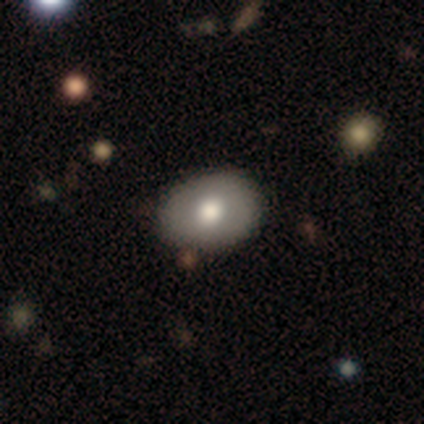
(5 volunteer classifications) Smooth or featured?
  - smooth: 60% *
  - featured or disk: 40%
  - star or artifact: 0%
How rounded?
  - in between: 100% *
  - round: 0%
  - cigar-shaped: 0%
Merging?
  - none: 100% *
  - minor disturbance: 0%
  - major disturbance: 0%
  - merger: 0%